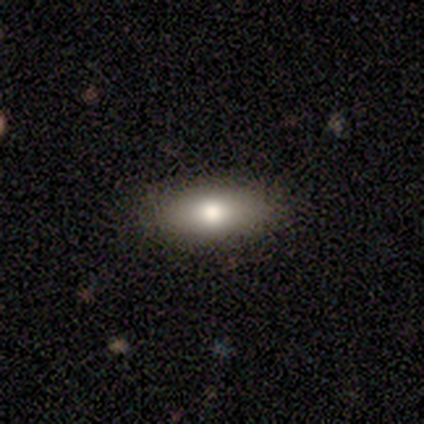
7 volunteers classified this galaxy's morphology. Smooth or featured? smooth (86%)
How rounded? in between (83%)
Merging? none (86%)